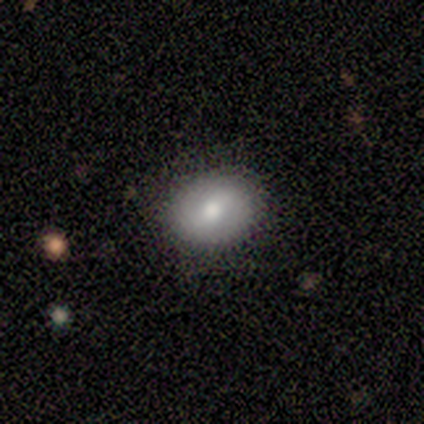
A smooth galaxy with no disk features (60%) that is in between round and cigar-shaped (67%).

Vote fractions:
- Smooth or featured? smooth: 60% / featured or disk: 40% / star or artifact: 0%
- How rounded? in between: 67% / round: 33% / cigar-shaped: 0%
- Merging? none: 60% / minor disturbance: 20% / merger: 20% / major disturbance: 0%